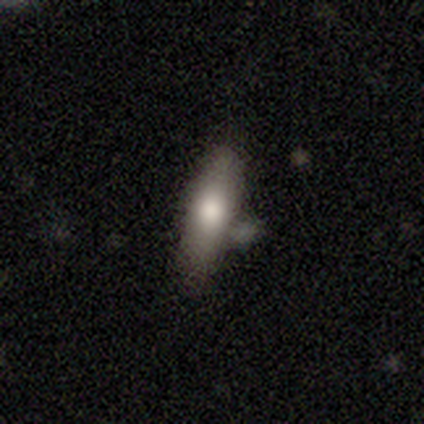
Smooth or featured? smooth (75%)
How rounded? cigar-shaped (63%)
Merging? none (64%)